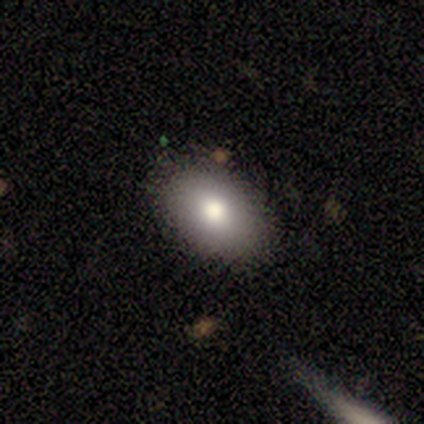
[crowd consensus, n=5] A smooth galaxy with no disk features (60%) that is in between round and cigar-shaped (100%). Merging: none (80%).